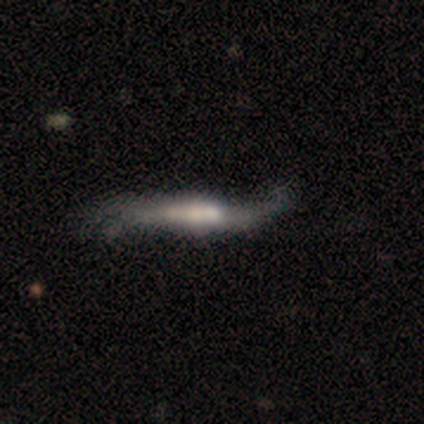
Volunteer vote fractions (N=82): Smooth or featured: featured or disk — 76% (smooth — 21%)
Edge-on disk: yes — 71% (no — 29%)
Edge-on bulge: rounded — 43% (boxy — 39%)
Merging: none — 34% (minor disturbance — 28%)